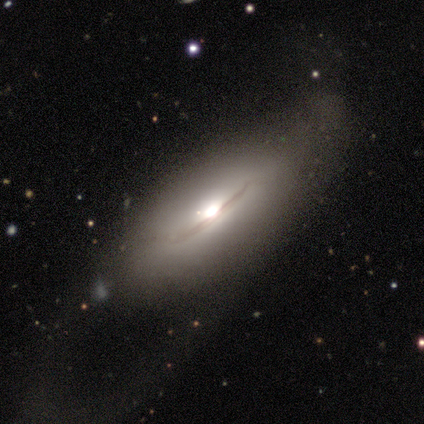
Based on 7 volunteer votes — smooth 43%, featured or disk 29%, star or artifact 29%. Down the decision tree: how rounded — in between (67%); merging — major disturbance (60%).